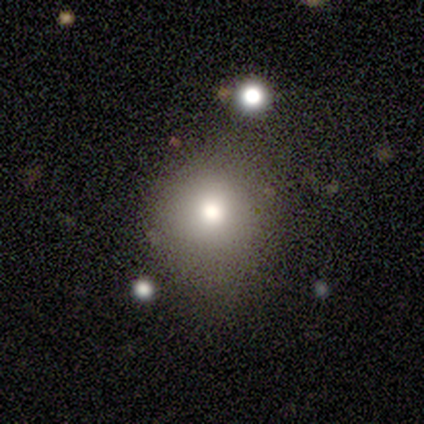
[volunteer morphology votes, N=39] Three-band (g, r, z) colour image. It shows a smooth galaxy with no disk features (69%) that is round (81%). Merging: none (71%).